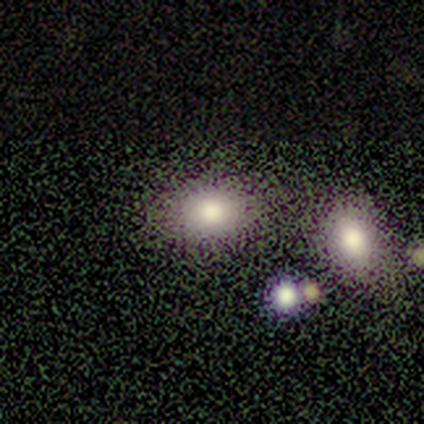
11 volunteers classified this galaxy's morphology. smooth 64%, star or artifact 27%, featured or disk 9%. Down the decision tree: how rounded — in between (57%); merging — none (88%).